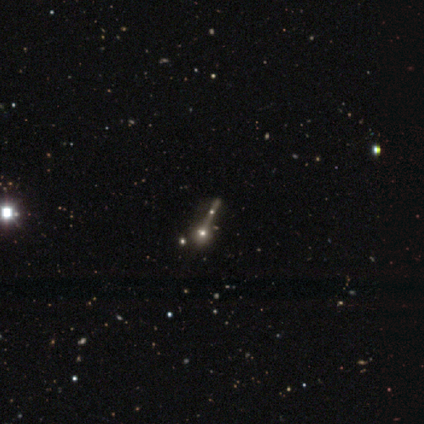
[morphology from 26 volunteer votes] type=featured or disk (50%); edge-on=yes (54%); edge-on bulge=rounded (100%); merging=merger (45%).